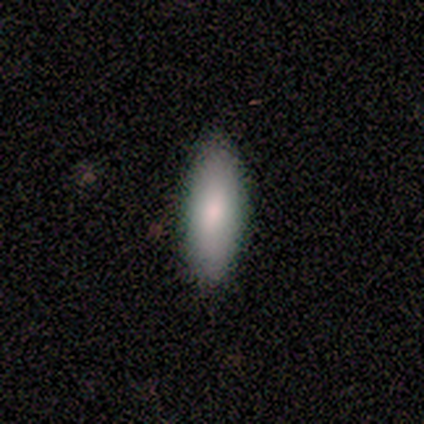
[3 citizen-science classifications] Smooth or featured? smooth (100%)
How rounded? in between (67%)
Merging? none (67%)